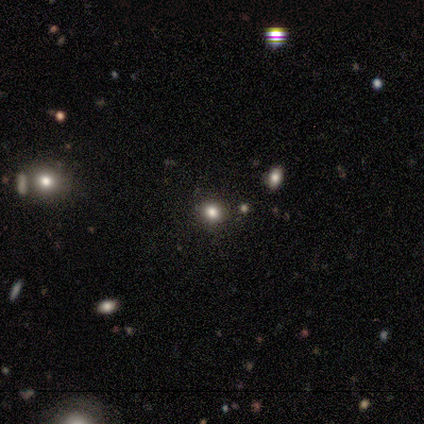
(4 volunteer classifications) This is possibly a smooth galaxy (50%, tied with star or artifact). How rounded: clearly round (100%). Merging: clearly none (100%).